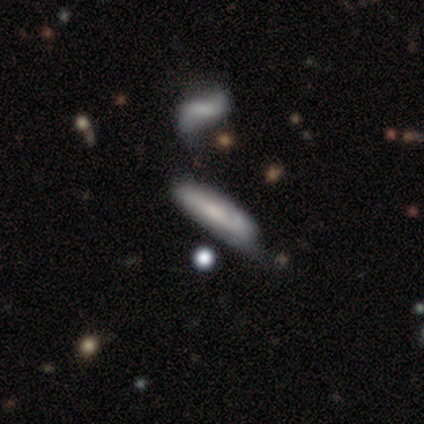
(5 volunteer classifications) This is likely a smooth galaxy (60%). How rounded: likely cigar-shaped (67%). Merging: likely minor disturbance (60%).